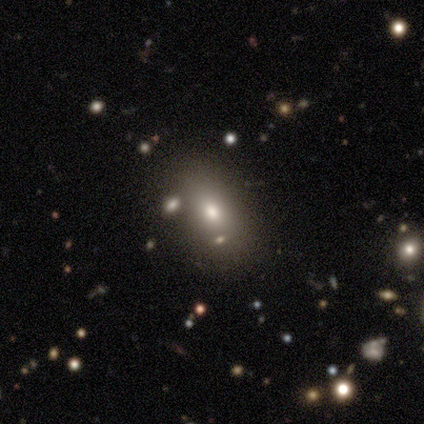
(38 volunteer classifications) Volunteers were most divided on "smooth or featured": smooth: 66%, star or artifact: 18%, featured or disk: 16%. More confident: merging — none (87%); how rounded — in between (76%).